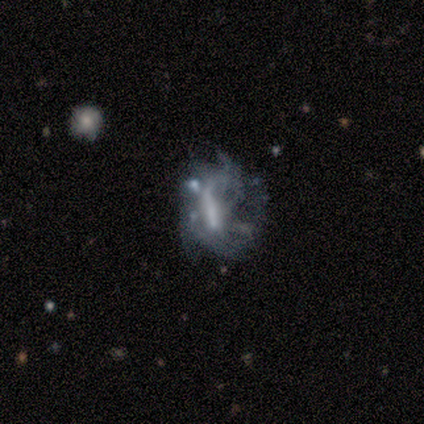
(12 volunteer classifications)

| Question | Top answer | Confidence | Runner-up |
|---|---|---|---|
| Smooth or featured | featured or disk | 75% | star or artifact (17%) |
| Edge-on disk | no | 100% | — |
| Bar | no | 44% | weak (33%) |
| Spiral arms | no | 56% | yes (44%) |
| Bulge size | none | 56% | moderate (33%) |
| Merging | major disturbance | 40% | minor disturbance (30%) |